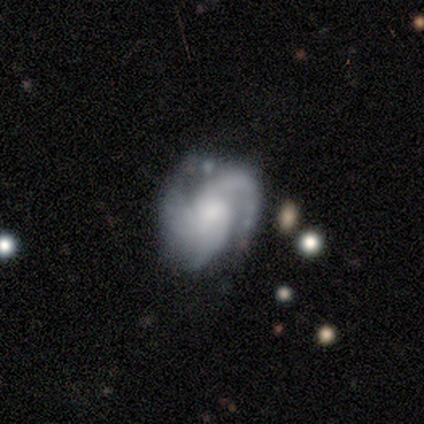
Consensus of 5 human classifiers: Smooth or featured? featured or disk (80%)
Edge-on disk? no (100%)
Bar? no (75%)
Spiral arms? yes (100%)
Spiral winding? medium (50%)
Spiral arm count? 2 (50%)
Bulge size? small (50%)
Merging? minor disturbance (80%)